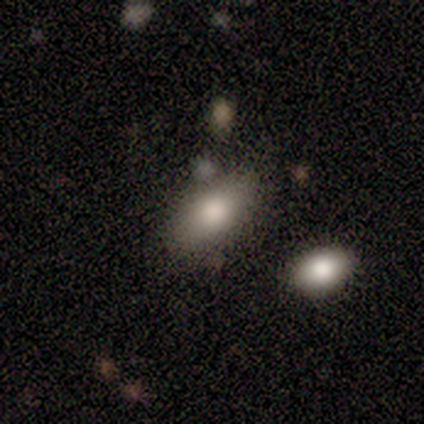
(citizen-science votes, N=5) smooth_or_featured: smooth (p=0.60) [alt: featured or disk p=0.40]
how_rounded: in between (p=0.67) [alt: cigar-shaped p=0.33]
merging: none (p=0.60) [alt: minor disturbance p=0.40]